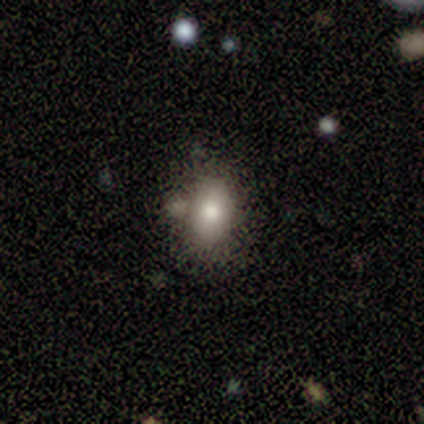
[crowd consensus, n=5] Morphology: type=smooth (80%); roundness=in between (75%); merging=none (60%).